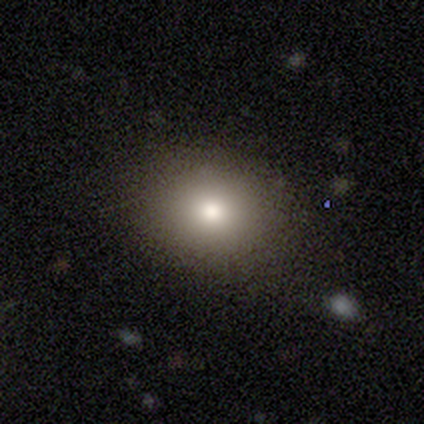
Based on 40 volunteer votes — Morphology: type=smooth (72%); roundness=round (69%); merging=none (88%).